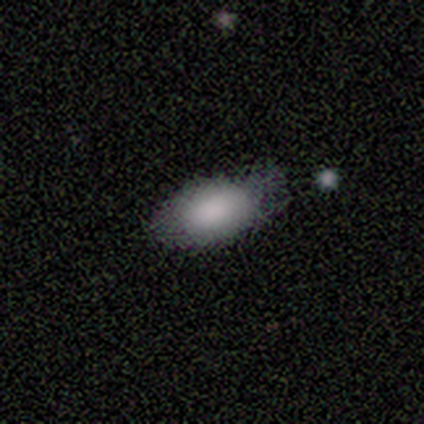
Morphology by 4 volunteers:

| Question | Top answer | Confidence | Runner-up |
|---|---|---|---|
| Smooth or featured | smooth | 100% | — |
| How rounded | in between | 100% | — |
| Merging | minor disturbance | 75% | none (25%) |